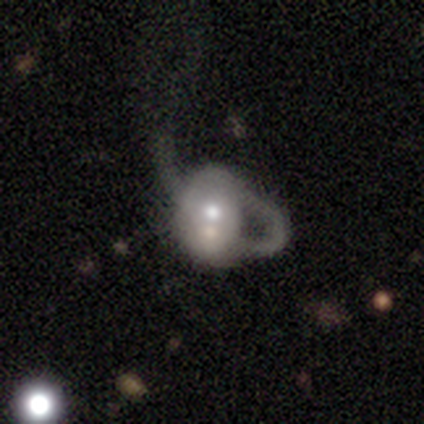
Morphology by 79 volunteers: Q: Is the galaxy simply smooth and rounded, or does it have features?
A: featured or disk — 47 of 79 (59%).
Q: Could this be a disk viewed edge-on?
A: no — 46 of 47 (98%).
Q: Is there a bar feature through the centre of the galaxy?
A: no — 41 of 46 (89%).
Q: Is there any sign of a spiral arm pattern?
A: no — 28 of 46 (61%).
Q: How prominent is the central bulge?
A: moderate — 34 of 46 (74%).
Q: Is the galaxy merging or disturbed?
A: major disturbance — 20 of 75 (27%).